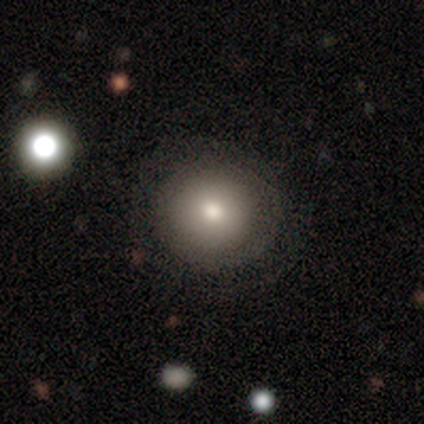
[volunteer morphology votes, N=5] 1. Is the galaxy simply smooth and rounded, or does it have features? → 60% smooth, 20% featured or disk, 20% star or artifact.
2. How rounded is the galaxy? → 100% round, 0% in between, 0% cigar-shaped.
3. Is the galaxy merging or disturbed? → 75% none, 25% major disturbance, 0% minor disturbance, 0% merger.